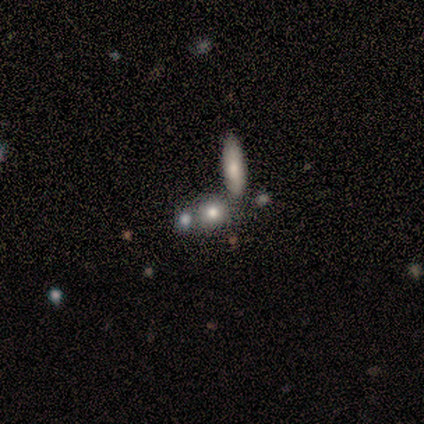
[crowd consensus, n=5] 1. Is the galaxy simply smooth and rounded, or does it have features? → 100% smooth, 0% featured or disk, 0% star or artifact.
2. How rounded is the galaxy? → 60% round, 40% cigar-shaped, 0% in between.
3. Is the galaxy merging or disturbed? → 100% none, 0% minor disturbance, 0% major disturbance, 0% merger.